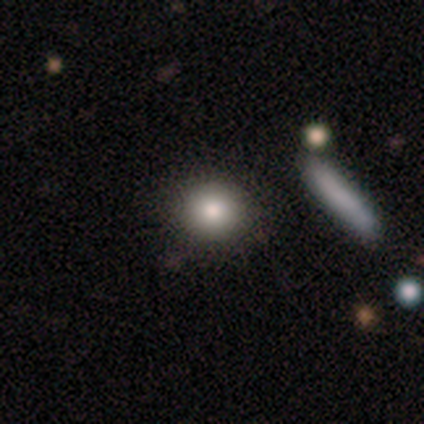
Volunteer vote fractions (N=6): smooth_or_featured: smooth (p=0.83) [alt: star or artifact p=0.17]
how_rounded: round (p=1.00)
merging: none (p=1.00)